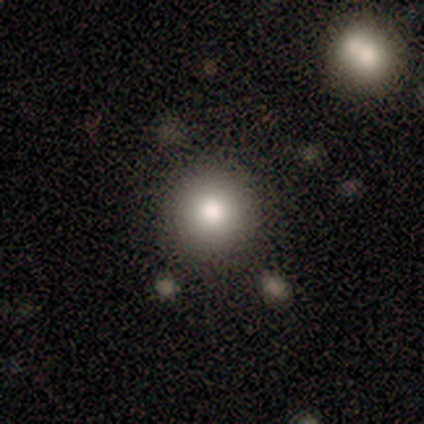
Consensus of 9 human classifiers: smooth-or-featured: smooth: 78% | featured or disk: 11% | star or artifact: 11%
  how-rounded: round: 100% | in between: 0% | cigar-shaped: 0%
  merging: none: 88% | minor disturbance: 12% | major disturbance: 0% | merger: 0%